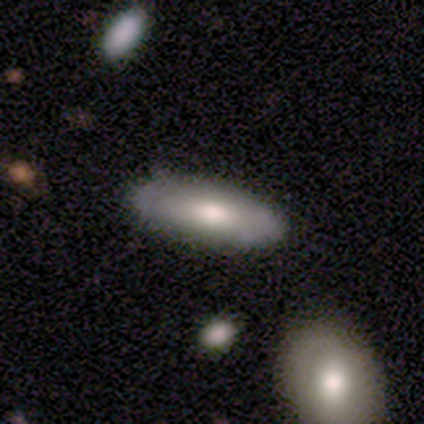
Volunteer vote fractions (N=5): Overall: smooth (60%; featured or disk 40%). How rounded: cigar-shaped (67%; in between 33%). Merging: none (80%).